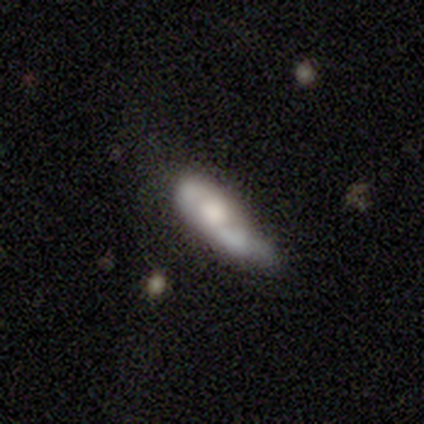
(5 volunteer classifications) Overall: smooth (40%, tied with featured or disk). How rounded: in between (50%, tied with cigar-shaped). Merging: minor disturbance (75%).